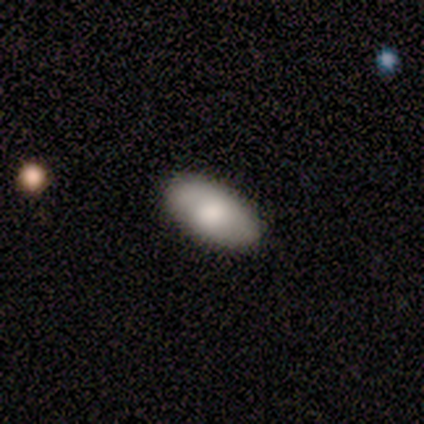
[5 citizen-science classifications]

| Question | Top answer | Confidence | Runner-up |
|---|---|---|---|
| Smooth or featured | smooth | 60% | featured or disk (20%) |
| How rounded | in between | 100% | — |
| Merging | none | 75% | minor disturbance (25%) |